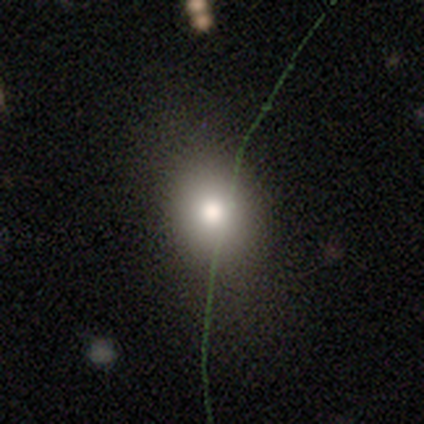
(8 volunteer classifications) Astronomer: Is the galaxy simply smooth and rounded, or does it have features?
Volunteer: smooth — 62%.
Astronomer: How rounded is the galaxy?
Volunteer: round — 60% (runner-up: in between, 40%).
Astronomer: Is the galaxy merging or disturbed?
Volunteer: none — 100%.